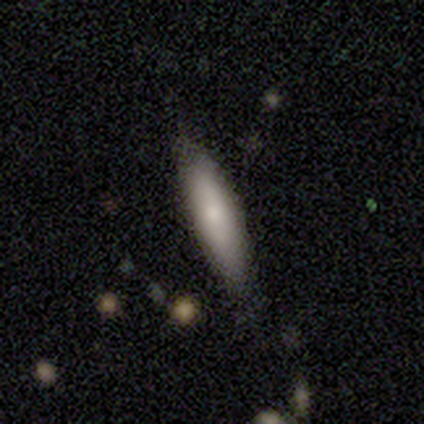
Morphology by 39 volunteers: A smooth galaxy with no disk features (67%) that is cigar-shaped (62%). Merging: none (71%).